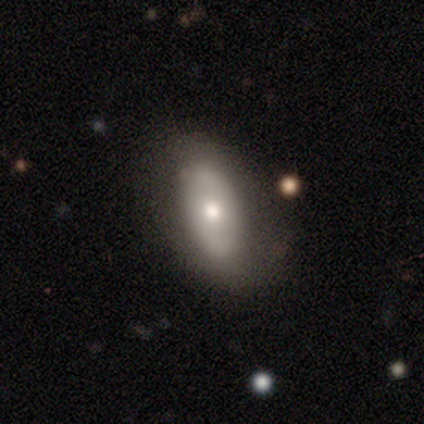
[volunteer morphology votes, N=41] type=featured or disk (56%); edge-on=no (100%); bar=no (78%); spiral arms=yes (52%); winding=tight (58%); arm count=2 (58%); bulge=moderate (83%); merging=none (76%).